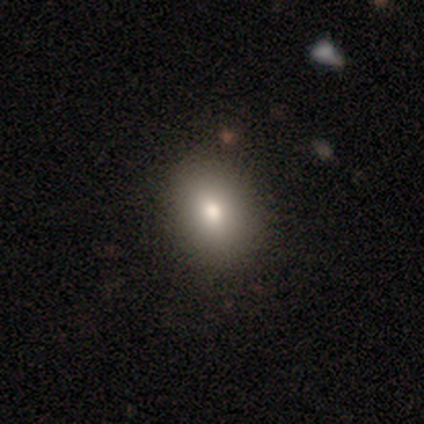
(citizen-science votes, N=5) Q: Smooth or featured?
A: smooth (80%); runner-up: featured or disk (20%)
Q: How rounded?
A: in between (75%); runner-up: round (25%)
Q: Merging?
A: none (100%)